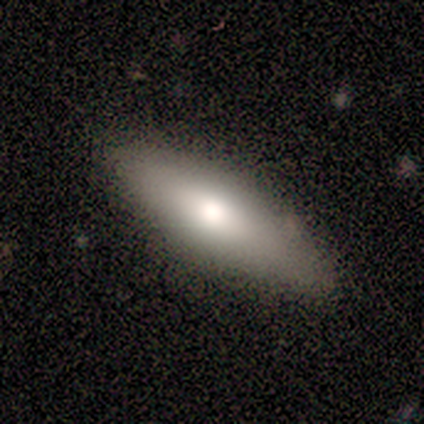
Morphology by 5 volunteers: type=smooth (80%); roundness=in between (75%); merging=none (100%).